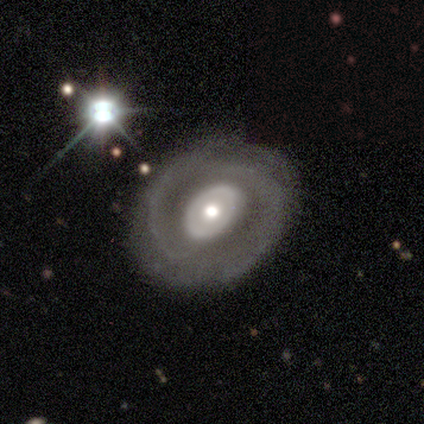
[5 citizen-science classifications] smooth_or_featured: featured or disk (p=0.60) [alt: smooth p=0.40]
disk_edge_on: no (p=1.00)
bar: no (p=1.00)
has_spiral_arms: no (p=0.67) [alt: yes p=0.33]
bulge_size: moderate (p=0.67) [alt: large p=0.33]
merging: none (p=0.80) [alt: minor disturbance p=0.20]